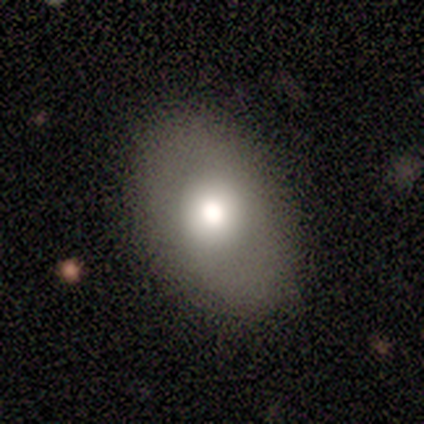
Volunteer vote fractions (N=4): Smooth or featured?
  - smooth: 100% *
  - featured or disk: 0%
  - star or artifact: 0%
How rounded?
  - in between: 75% *
  - round: 25%
  - cigar-shaped: 0%
Merging?
  - none: 75% *
  - minor disturbance: 25%
  - major disturbance: 0%
  - merger: 0%